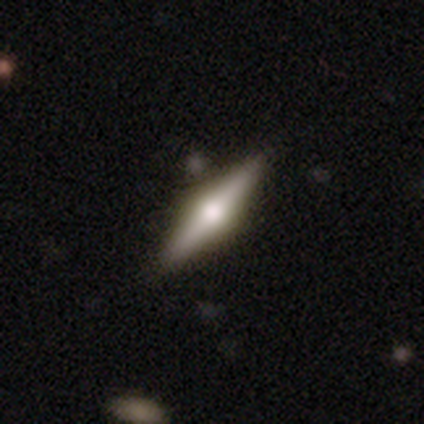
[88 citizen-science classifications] Smooth or featured: featured or disk — 69% (smooth — 23%)
Edge-on disk: yes — 98% (no — 2%)
Edge-on bulge: rounded — 97% (boxy — 3%)
Merging: none — 85% (minor disturbance — 11%)